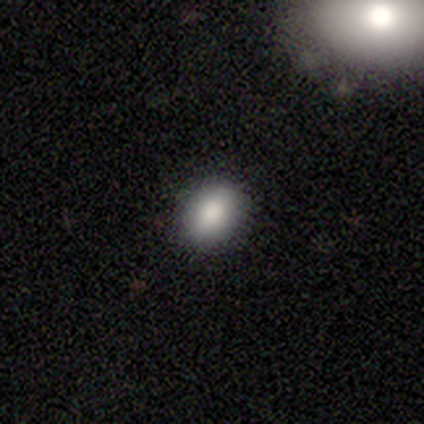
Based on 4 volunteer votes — Smooth or featured: smooth — 100%
How rounded: in between — 75% (round — 25%)
Merging: none — 75% (minor disturbance — 25%)